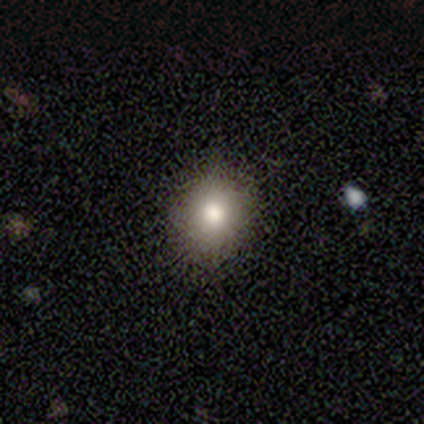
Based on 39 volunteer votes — Smooth or featured?
  - smooth: 82% *
  - featured or disk: 10%
  - star or artifact: 8%
How rounded?
  - round: 59% *
  - in between: 41%
  - cigar-shaped: 0%
Merging?
  - none: 86% *
  - minor disturbance: 14%
  - major disturbance: 0%
  - merger: 0%